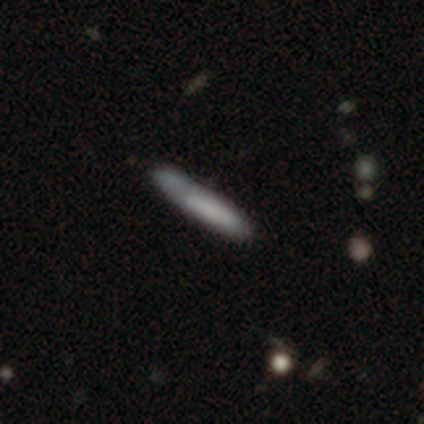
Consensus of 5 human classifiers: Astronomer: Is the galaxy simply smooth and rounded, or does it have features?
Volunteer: smooth — 80%.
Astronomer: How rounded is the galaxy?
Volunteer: cigar-shaped — 100%.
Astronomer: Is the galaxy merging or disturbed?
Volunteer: none — 60%.